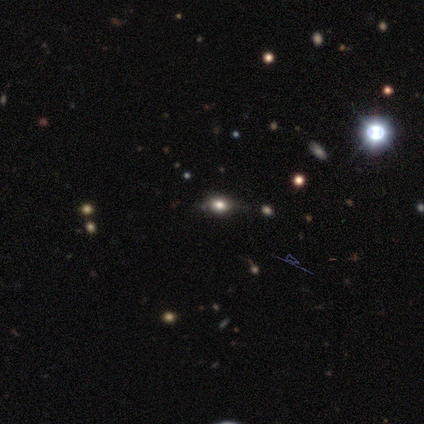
Morphology: type=smooth (67%); roundness=round (50%, tied with in between); merging=none (80%).